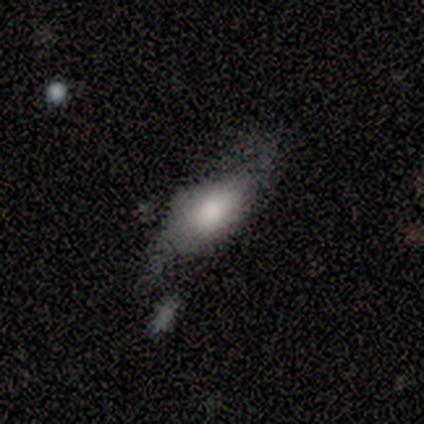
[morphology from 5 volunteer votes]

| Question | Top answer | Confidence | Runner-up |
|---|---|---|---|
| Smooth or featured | smooth | 60% | featured or disk (40%) |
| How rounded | in between | 100% | — |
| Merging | none | 60% | minor disturbance (20%) |